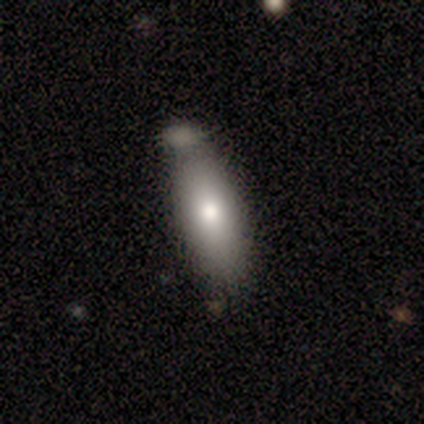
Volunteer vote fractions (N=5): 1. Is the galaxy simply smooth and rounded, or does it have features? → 40% smooth (tied), 40% featured or disk (tied), 20% star or artifact.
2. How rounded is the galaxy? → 50% in between (tied), 50% cigar-shaped (tied), 0% round.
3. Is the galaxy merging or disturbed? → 25% none (tied), 25% minor disturbance (tied), 25% major disturbance (tied), 25% merger (tied).